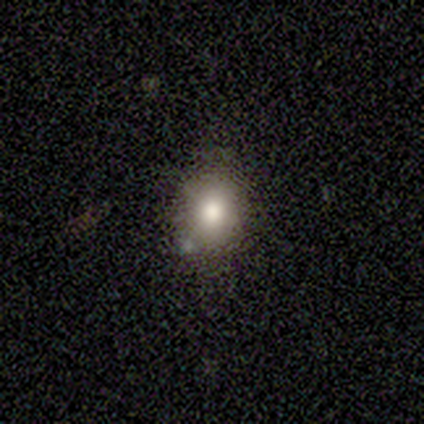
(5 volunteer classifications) smooth 80%, featured or disk 20%, star or artifact 0%. Down the decision tree: how rounded — round (50%, tied with in between); merging — none (100%).